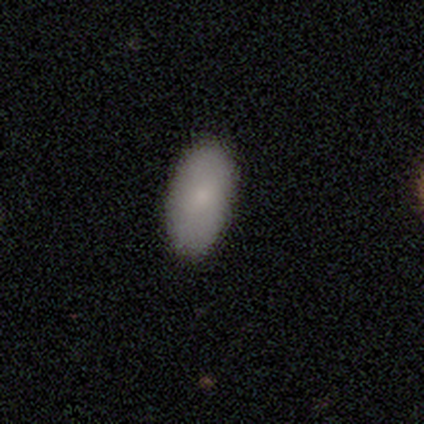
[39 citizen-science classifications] Q: Smooth or featured?
A: smooth (74%); runner-up: featured or disk (26%)
Q: How rounded?
A: in between (97%); runner-up: round (3%)
Q: Merging?
A: none (87%); runner-up: minor disturbance (5%)